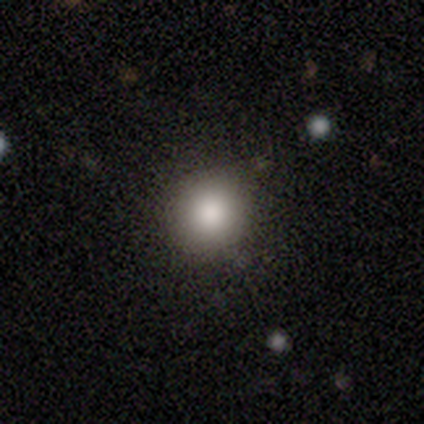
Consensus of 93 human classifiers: Q: Smooth or featured?
A: smooth (83%); runner-up: star or artifact (12%)
Q: How rounded?
A: round (86%); runner-up: in between (10%)
Q: Merging?
A: none (82%); runner-up: minor disturbance (11%)